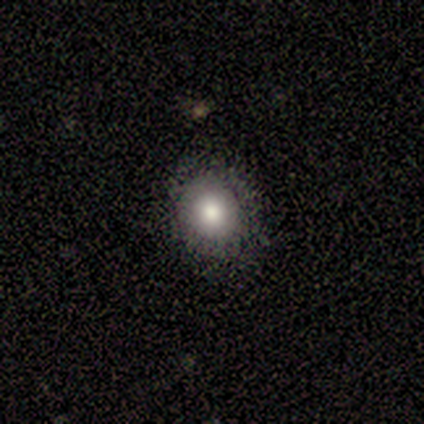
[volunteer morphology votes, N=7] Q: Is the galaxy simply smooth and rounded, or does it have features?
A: smooth — 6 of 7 (86%).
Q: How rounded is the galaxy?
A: round — 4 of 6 (67%).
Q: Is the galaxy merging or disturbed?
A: none — 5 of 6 (83%).